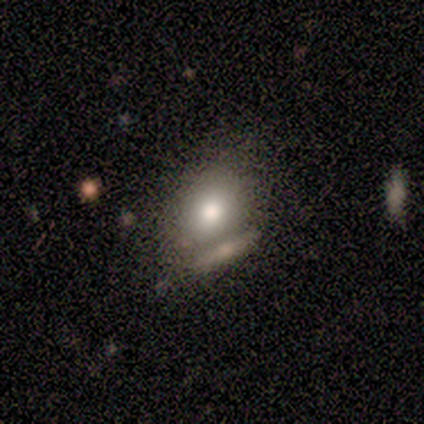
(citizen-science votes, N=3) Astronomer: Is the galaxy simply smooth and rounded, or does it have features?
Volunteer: smooth — 67%.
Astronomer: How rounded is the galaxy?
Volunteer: round — 50%, tied with in between at 50%.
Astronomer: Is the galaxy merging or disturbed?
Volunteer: minor disturbance — 67%.